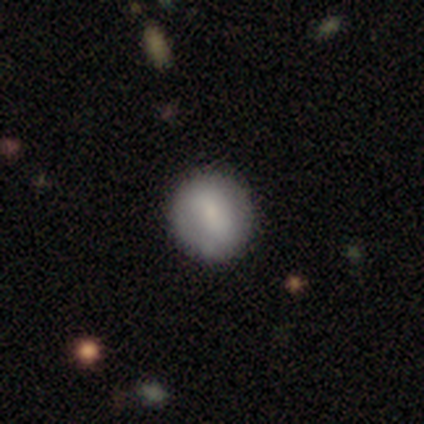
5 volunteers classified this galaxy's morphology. Volunteers were most divided on "merging" (2-way tie): none: 50%, minor disturbance: 50%, major disturbance: 0%, merger: 0%. More confident: how rounded — round (100%); smooth or featured — smooth (60%).